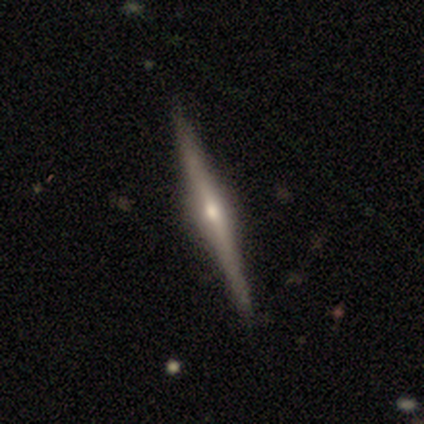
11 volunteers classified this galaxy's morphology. Smooth or featured: featured or disk — 91% (star or artifact — 9%)
Edge-on disk: yes — 100%
Edge-on bulge: rounded — 100%
Merging: none — 100%